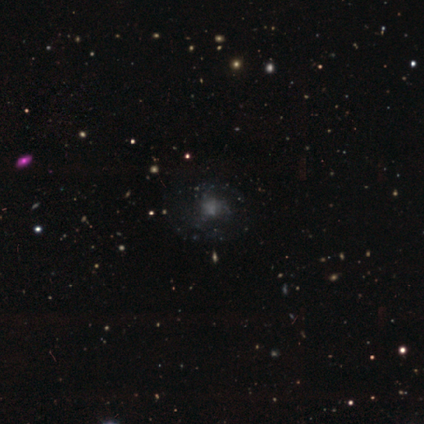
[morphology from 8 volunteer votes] Volunteers were most divided on "smooth or featured": star or artifact: 50%, smooth: 38%, featured or disk: 12%.